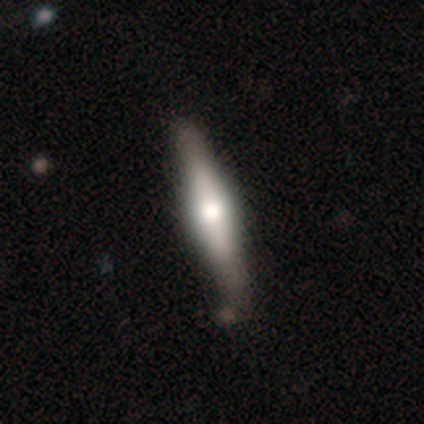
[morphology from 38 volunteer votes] Smooth or featured: featured or disk — 63% (smooth — 32%)
Edge-on disk: yes — 96% (no — 4%)
Edge-on bulge: rounded — 74% (boxy — 22%)
Merging: none — 67% (minor disturbance — 6%)